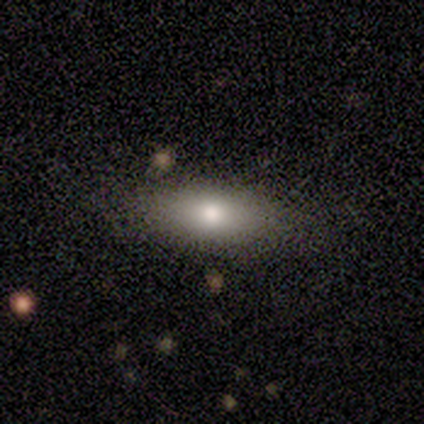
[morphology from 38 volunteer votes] Smooth or featured?
  - smooth: 71% *
  - featured or disk: 24%
  - star or artifact: 5%
How rounded?
  - in between: 78% *
  - cigar-shaped: 19%
  - round: 4%
Merging?
  - none: 78% *
  - minor disturbance: 17%
  - major disturbance: 3%
  - merger: 3%